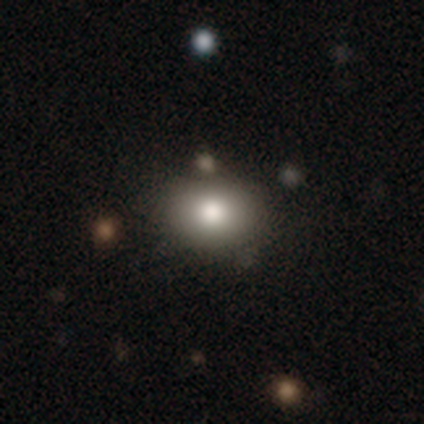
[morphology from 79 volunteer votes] Smooth or featured: smooth — 82% (star or artifact — 11%)
How rounded: round — 60% (in between — 40%)
Merging: none — 46% (merger — 7%)